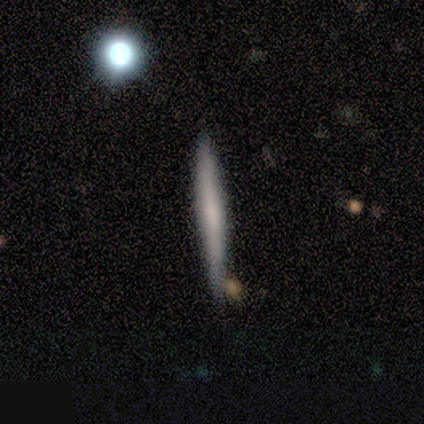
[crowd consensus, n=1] Morphology: type=smooth (100%); roundness=cigar-shaped (100%); merging=none (100%).